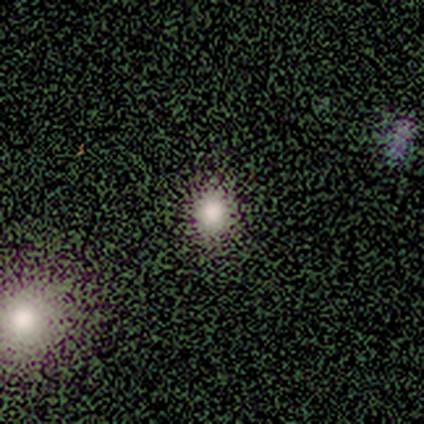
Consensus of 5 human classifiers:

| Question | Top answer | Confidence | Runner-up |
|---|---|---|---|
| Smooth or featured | smooth | 80% | star or artifact (20%) |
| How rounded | round | 50% | tied: in between (50%) |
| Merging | none | 75% | merger (25%) |